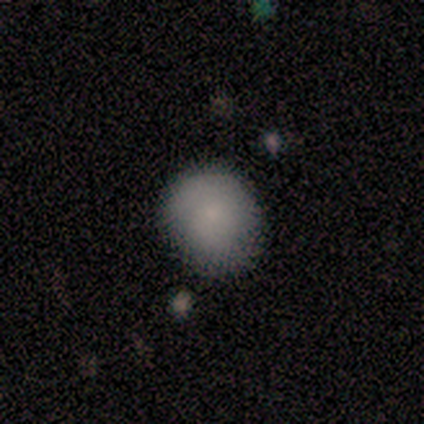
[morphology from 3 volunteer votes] smooth-or-featured: smooth: 67% | featured or disk: 33% | star or artifact: 0%
  how-rounded: round: 100% | in between: 0% | cigar-shaped: 0%
  merging: minor disturbance: 67% | none: 33% | major disturbance: 0% | merger: 0%